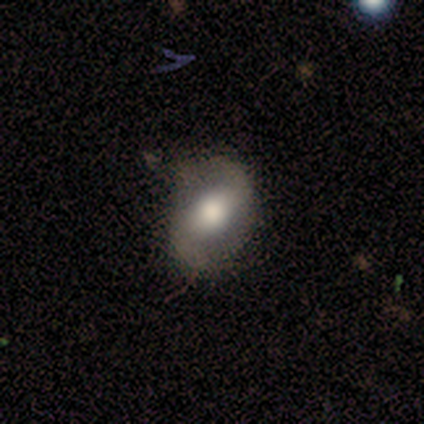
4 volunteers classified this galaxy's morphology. Smooth or featured? 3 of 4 (75%) said featured or disk. Edge-on disk? 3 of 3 (100%) said no. Bar? 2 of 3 (67%) said weak. Spiral arms? 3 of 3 (100%) said yes. Spiral winding? 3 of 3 (100%) said loose. Spiral arm count? 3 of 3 (100%) said 2. Bulge size? 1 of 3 (33%, tied with moderate and none) said large. Merging? 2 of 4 (50%, tied with minor disturbance) said none.